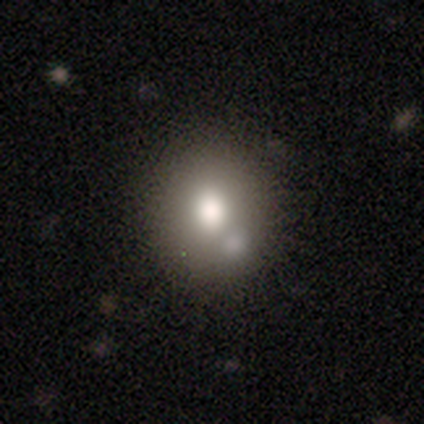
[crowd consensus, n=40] Smooth or featured?
  - smooth: 68% *
  - featured or disk: 20%
  - star or artifact: 12%
How rounded?
  - round: 70% *
  - in between: 30%
  - cigar-shaped: 0%
Merging?
  - none: 54% *
  - merger: 31%
  - minor disturbance: 6%
  - major disturbance: 3%